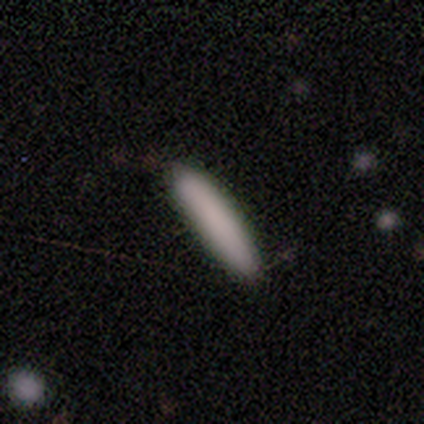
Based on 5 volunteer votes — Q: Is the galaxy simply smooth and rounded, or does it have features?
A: smooth — 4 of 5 (80%).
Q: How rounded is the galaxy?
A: cigar-shaped — 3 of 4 (75%).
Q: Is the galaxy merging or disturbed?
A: none — 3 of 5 (60%).